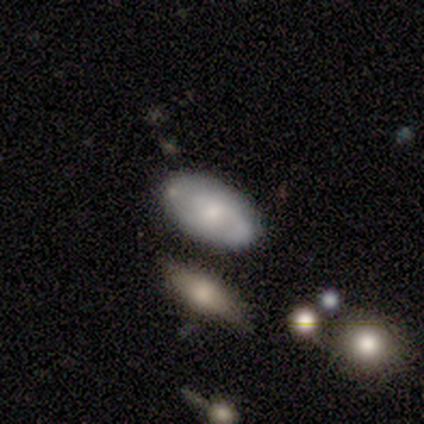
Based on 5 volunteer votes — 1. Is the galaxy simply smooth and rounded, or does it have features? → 80% smooth, 20% featured or disk, 0% star or artifact.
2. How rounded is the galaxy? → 100% in between, 0% round, 0% cigar-shaped.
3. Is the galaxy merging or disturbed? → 60% none, 20% minor disturbance, 20% merger, 0% major disturbance.